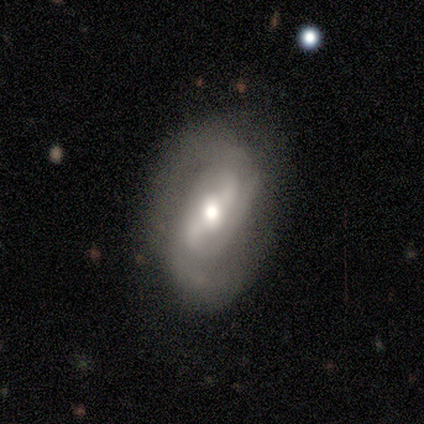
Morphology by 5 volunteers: Q: Smooth or featured?
A: featured or disk (80%); runner-up: smooth (20%)
Q: Edge-on disk?
A: no (100%)
Q: Bar?
A: strong (50%); runner-up: weak (25%)
Q: Spiral arms?
A: yes (100%)
Q: Spiral winding?
A: medium (75%); runner-up: loose (25%)
Q: Spiral arm count?
A: 2 (75%); runner-up: can't tell (25%)
Q: Bulge size?
A: moderate (50%); tied with: small (50%)
Q: Merging?
A: none (60%); runner-up: minor disturbance (40%)